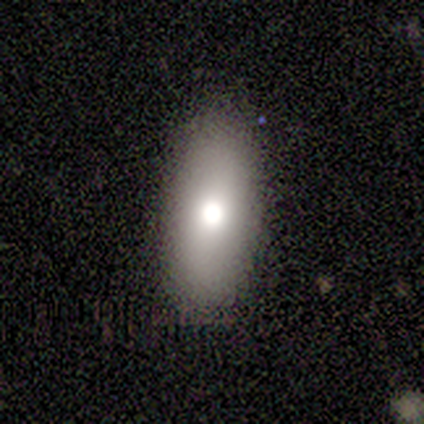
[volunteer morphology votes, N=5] smooth_or_featured: smooth (p=0.80) [alt: featured or disk p=0.20]
how_rounded: in between (p=1.00)
merging: none (p=1.00)